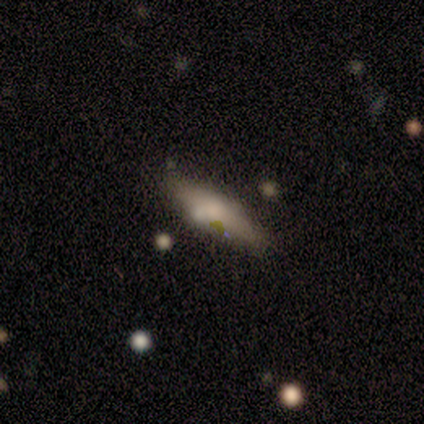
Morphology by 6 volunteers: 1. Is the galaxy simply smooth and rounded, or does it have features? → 67% smooth, 33% featured or disk, 0% star or artifact.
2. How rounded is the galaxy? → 50% in between (tied), 50% cigar-shaped (tied), 0% round.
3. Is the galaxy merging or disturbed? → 67% none, 33% minor disturbance, 0% major disturbance, 0% merger.